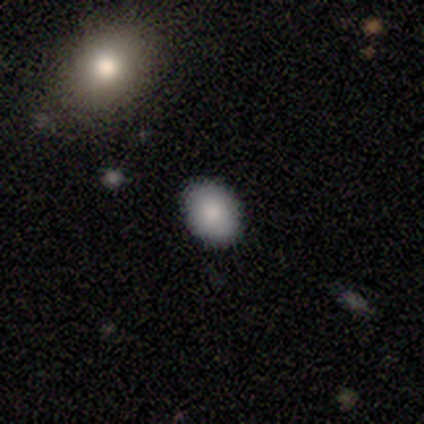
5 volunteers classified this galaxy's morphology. This is clearly a smooth galaxy (100%). How rounded: likely round (60%). Merging: clearly none (100%).